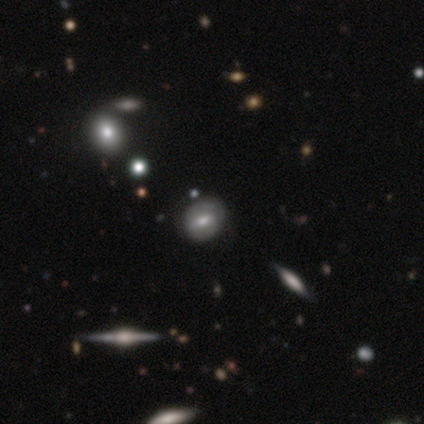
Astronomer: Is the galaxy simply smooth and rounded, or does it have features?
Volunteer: featured or disk — 80%.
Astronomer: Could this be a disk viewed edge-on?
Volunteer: no — 75%.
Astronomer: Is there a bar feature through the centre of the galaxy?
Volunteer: no — 67%.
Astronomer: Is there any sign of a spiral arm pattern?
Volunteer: no — 100%.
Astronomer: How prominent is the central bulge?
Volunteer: moderate — 67%.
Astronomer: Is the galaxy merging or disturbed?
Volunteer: none — 100%.